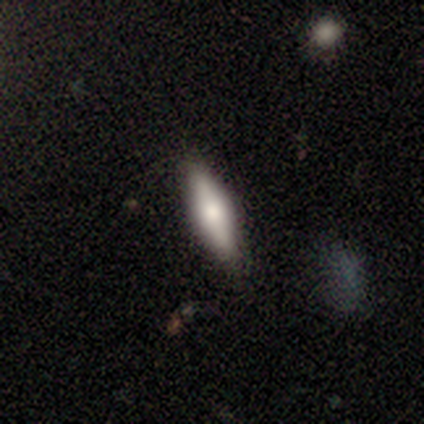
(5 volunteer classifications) Smooth or featured? 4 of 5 (80%) said smooth. How rounded? 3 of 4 (75%) said cigar-shaped. Merging? 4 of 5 (80%) said none.